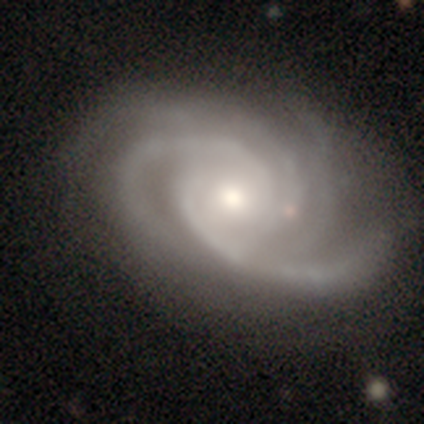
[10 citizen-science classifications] This appears to be a featured or disk galaxy (90%) with no bar (88%), 4 (62%) tight (100%) spiral arms (100%) and a moderate central bulge (75%). Merging: none (67%).